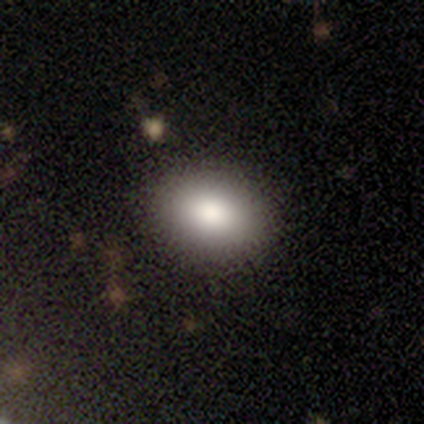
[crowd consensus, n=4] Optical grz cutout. It shows a smooth galaxy with no disk features (100%) that is in between round and cigar-shaped (75%). Merging: none (100%).